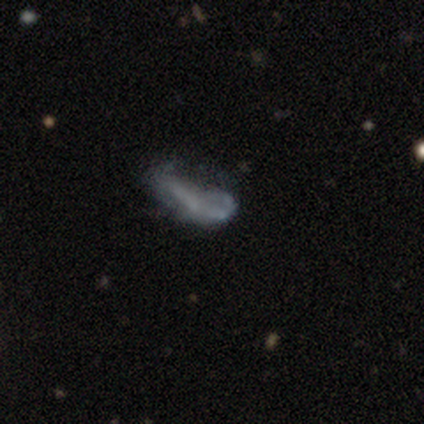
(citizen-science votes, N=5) A featured or disk galaxy (80%) with no bar (100%), no spiral arms (67%) and no central bulge (100%).

Vote fractions:
- Smooth or featured? featured or disk: 80% / smooth: 20% / star or artifact: 0%
- Edge-on disk? no: 75% / yes: 25%
- Bar? no: 100% / strong: 0% / weak: 0%
- Spiral arms? no: 67% / yes: 33%
- Bulge size? none: 100% / dominant: 0% / large: 0% / moderate: 0% / small: 0%
- Merging? none: 40% (tied) / minor disturbance: 40% (tied) / major disturbance: 20% / merger: 0%